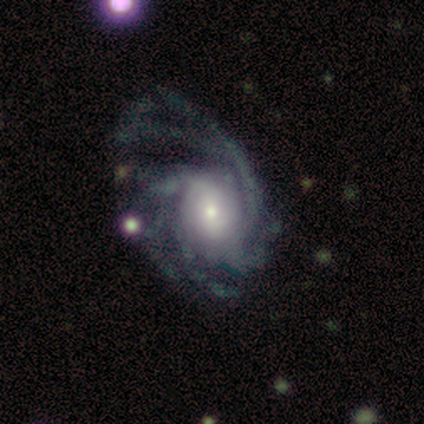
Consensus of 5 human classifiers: featured or disk 100%, smooth 0%, star or artifact 0%. Down the decision tree: edge-on disk — no (100%); bar — no (80%); spiral arms — yes (100%); spiral arm count — more than 4 (40%); spiral winding — medium (80%); bulge size — moderate (40%, tied with small); merging — none (60%).